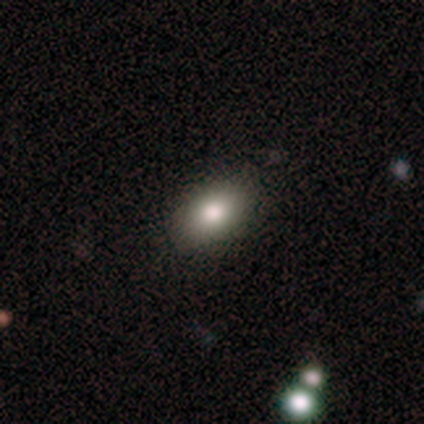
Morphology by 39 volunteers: This appears to be a smooth galaxy with no disk features (85%) that is in between round and cigar-shaped (97%). Merging: none (89%).